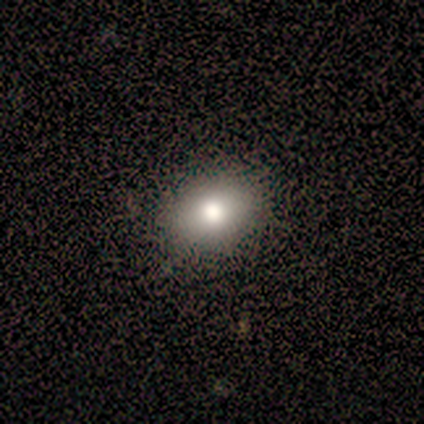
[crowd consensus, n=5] Volunteers were most divided on "how rounded": in between: 60%, round: 40%, cigar-shaped: 0%. More confident: smooth or featured — smooth (100%); merging — none (100%).